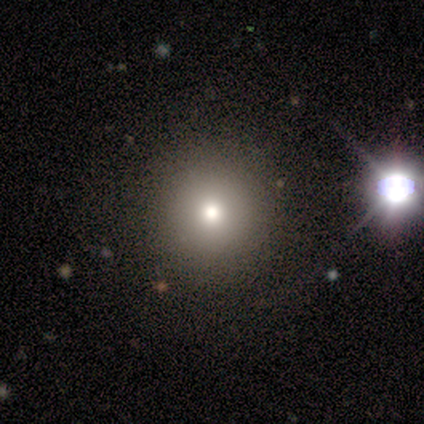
Overall: smooth (86%). How rounded: round (100%). Merging: none (100%).